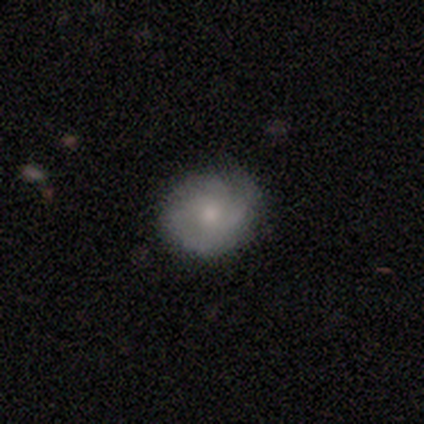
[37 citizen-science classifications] Q: Smooth or featured?
A: smooth (57%); runner-up: featured or disk (41%)
Q: How rounded?
A: round (76%); runner-up: in between (19%)
Q: Merging?
A: none (86%); runner-up: minor disturbance (14%)